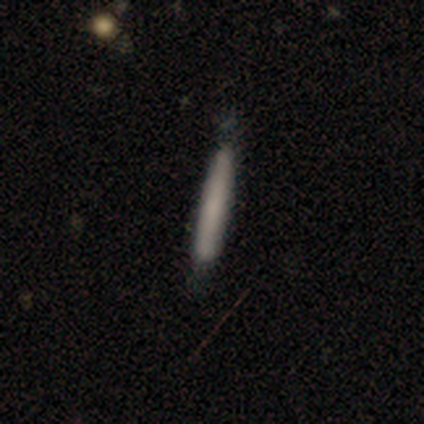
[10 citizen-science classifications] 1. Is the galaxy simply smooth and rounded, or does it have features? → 70% smooth, 20% featured or disk, 10% star or artifact.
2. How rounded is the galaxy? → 100% cigar-shaped, 0% round, 0% in between.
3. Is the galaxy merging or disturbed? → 67% none, 22% minor disturbance, 11% merger, 0% major disturbance.